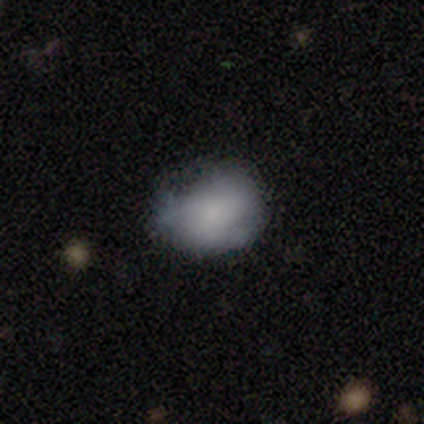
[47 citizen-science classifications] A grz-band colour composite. It shows a smooth galaxy with no disk features (79%) that is in between round and cigar-shaped (62%). Merging: none (48%).